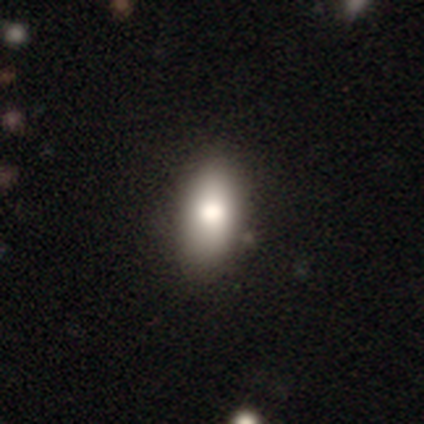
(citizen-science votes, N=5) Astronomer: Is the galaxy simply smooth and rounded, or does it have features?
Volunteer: smooth — 80%.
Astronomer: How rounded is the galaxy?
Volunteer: in between — 100%.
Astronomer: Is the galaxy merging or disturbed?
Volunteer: none — 100%.